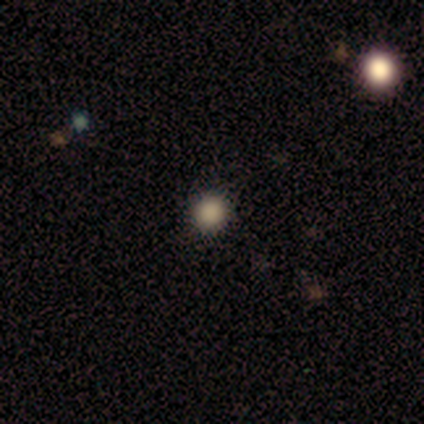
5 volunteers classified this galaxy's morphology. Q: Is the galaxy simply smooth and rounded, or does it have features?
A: smooth — 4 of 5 (80%).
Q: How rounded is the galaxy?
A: round — 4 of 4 (100%).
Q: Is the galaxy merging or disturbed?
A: none — 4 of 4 (100%).